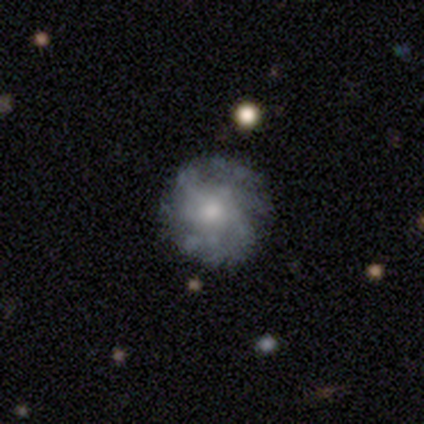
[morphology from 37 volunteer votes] Q: Smooth or featured?
A: featured or disk (68%); runner-up: smooth (24%)
Q: Edge-on disk?
A: no (100%)
Q: Bar?
A: no (92%); runner-up: weak (8%)
Q: Spiral arms?
A: yes (68%); runner-up: no (32%)
Q: Spiral winding?
A: tight (41%); tied with: medium (41%)
Q: Spiral arm count?
A: can't tell (59%); runner-up: more than 4 (35%)
Q: Bulge size?
A: small (40%); runner-up: moderate (36%)
Q: Merging?
A: none (85%); runner-up: minor disturbance (15%)